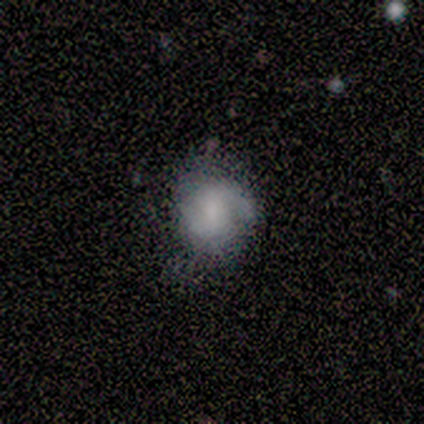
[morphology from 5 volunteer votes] Volunteers were most divided on "how rounded" (2-way tie): round: 50%, in between: 50%, cigar-shaped: 0%. More confident: smooth or featured — smooth (80%); merging — none (60%).